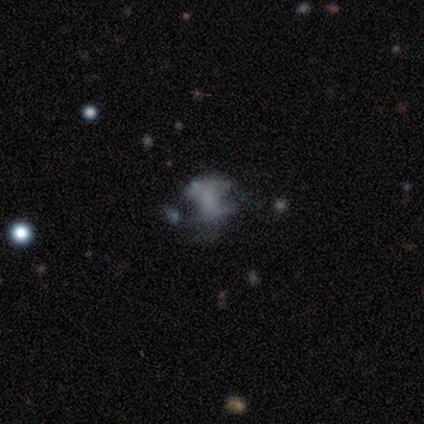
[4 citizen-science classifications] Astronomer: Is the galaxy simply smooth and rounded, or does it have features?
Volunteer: smooth — 50%.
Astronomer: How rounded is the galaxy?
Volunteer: in between — 100%.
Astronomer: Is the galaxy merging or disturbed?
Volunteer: none — 33%, tied with major disturbance and merger at 33%.